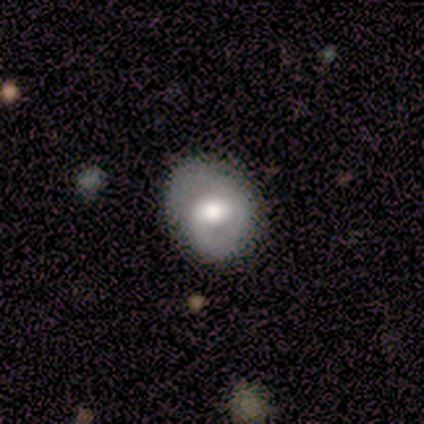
A smooth galaxy with no disk features (75%) that is round (67%).

Vote fractions:
- Smooth or featured? smooth: 75% / featured or disk: 25% / star or artifact: 0%
- How rounded? round: 67% / in between: 33% / cigar-shaped: 0%
- Merging? none: 50% (tied) / major disturbance: 50% (tied) / minor disturbance: 0% / merger: 0%